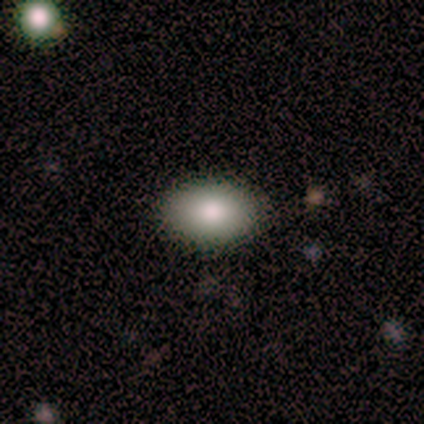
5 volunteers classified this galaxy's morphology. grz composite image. It shows a smooth galaxy with no disk features (60%) that is in between round and cigar-shaped (100%). Merging: none (67%).